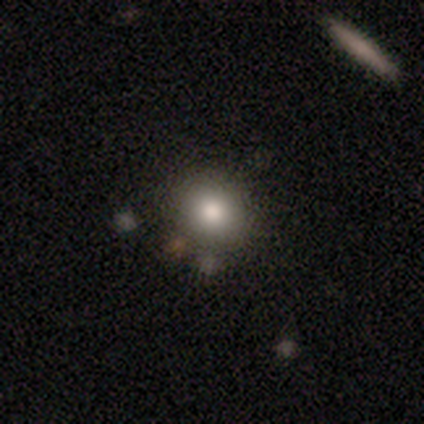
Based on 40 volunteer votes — Smooth or featured?
  - smooth: 75% *
  - star or artifact: 18%
  - featured or disk: 8%
How rounded?
  - round: 93% *
  - in between: 7%
  - cigar-shaped: 0%
Merging?
  - none: 82% *
  - minor disturbance: 15%
  - merger: 3%
  - major disturbance: 0%